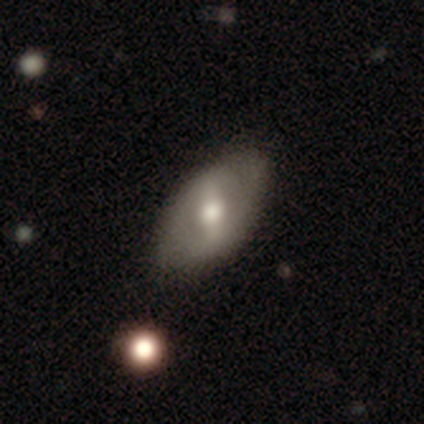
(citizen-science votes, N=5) Smooth or featured: featured or disk — 60% (smooth — 20%)
Edge-on disk: no — 67% (yes — 33%)
Bar: strong — 50% (tied with weak — 50%)
Spiral arms: yes — 50% (tied with no — 50%)
Spiral winding: loose — 100%
Spiral arm count: 2 — 100%
Bulge size: moderate — 100%
Merging: none — 100%